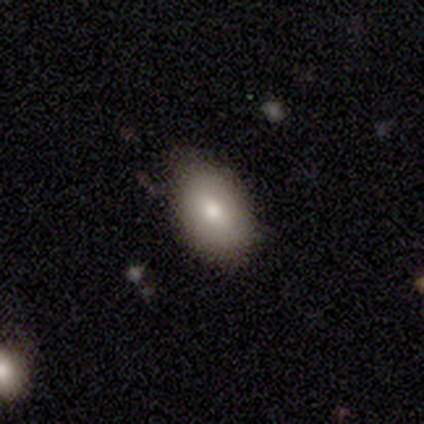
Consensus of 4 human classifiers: smooth-or-featured: smooth: 75% | featured or disk: 25% | star or artifact: 0%
  how-rounded: in between: 100% | round: 0% | cigar-shaped: 0%
  merging: none: 50% | minor disturbance: 25% | major disturbance: 25% | merger: 0%